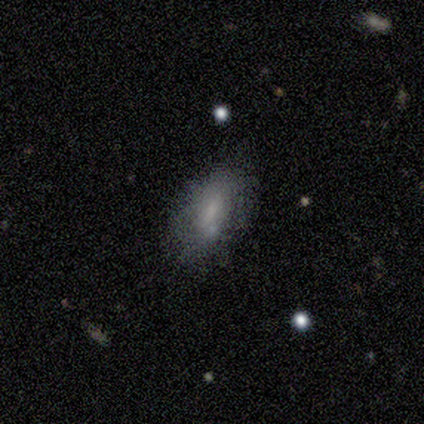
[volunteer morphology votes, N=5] Smooth or featured?
  - smooth: 100% *
  - featured or disk: 0%
  - star or artifact: 0%
How rounded?
  - in between: 100% *
  - round: 0%
  - cigar-shaped: 0%
Merging?
  - none: 40% * (tied)
  - minor disturbance: 40% * (tied)
  - major disturbance: 20%
  - merger: 0%